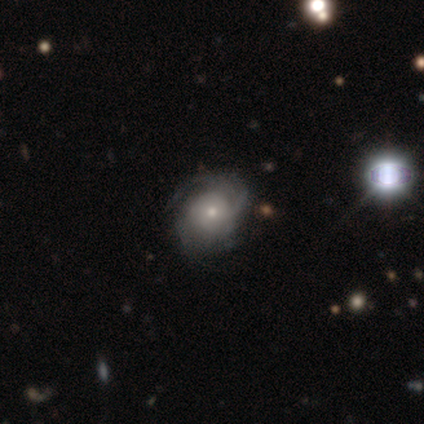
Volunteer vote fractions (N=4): A featured or disk galaxy (75%) with no bar (100%), 3 (50%, tied with can't tell) tight (100%) spiral arms (67%) and a moderate central bulge (67%).

Vote fractions:
- Smooth or featured? featured or disk: 75% / smooth: 25% / star or artifact: 0%
- Edge-on disk? no: 100% / yes: 0%
- Bar? no: 100% / strong: 0% / weak: 0%
- Spiral arms? yes: 67% / no: 33%
- Spiral winding? tight: 100% / medium: 0% / loose: 0%
- Spiral arm count? 3: 50% (tied) / can't tell: 50% (tied) / 1: 0% / 2: 0% / 4: 0% / more than 4: 0%
- Bulge size? moderate: 67% / small: 33% / dominant: 0% / large: 0% / none: 0%
- Merging? none: 75% / minor disturbance: 25% / major disturbance: 0% / merger: 0%